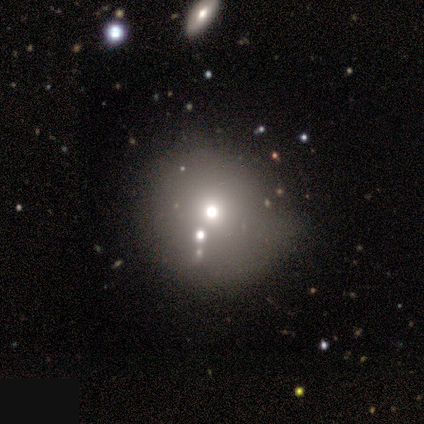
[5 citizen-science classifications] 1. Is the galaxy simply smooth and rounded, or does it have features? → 80% smooth, 20% featured or disk, 0% star or artifact.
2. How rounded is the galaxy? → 100% round, 0% in between, 0% cigar-shaped.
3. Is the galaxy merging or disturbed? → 60% none, 20% major disturbance, 20% merger, 0% minor disturbance.